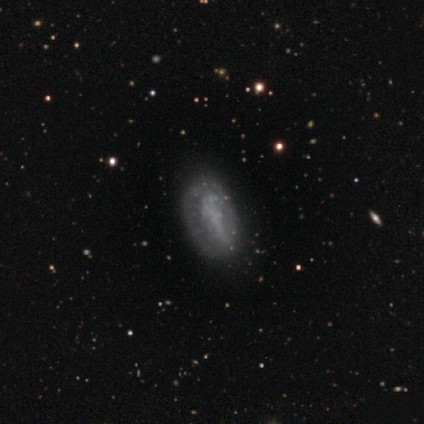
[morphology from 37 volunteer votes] type=featured or disk (65%); edge-on=no (92%); bar=no (64%); spiral arms=no (73%); bulge=none (91%); merging=none (58%).